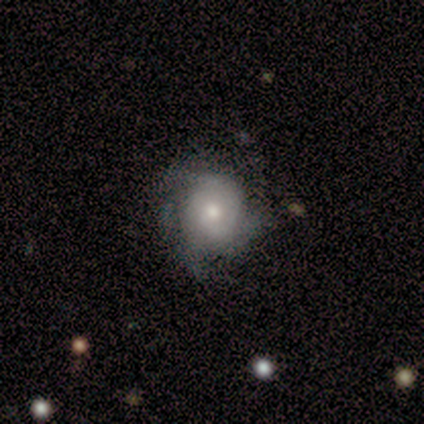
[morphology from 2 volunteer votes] smooth 50% (tied), featured or disk 50% (tied), star or artifact 0%. Down the decision tree: how rounded — round (100%); merging — none (100%).